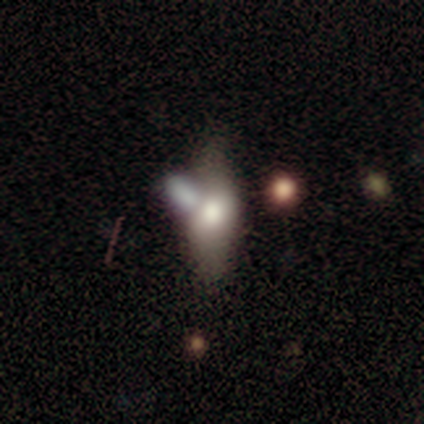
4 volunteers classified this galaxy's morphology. Volunteers were most divided on "merging": merger: 50%, minor disturbance: 25%, major disturbance: 25%, none: 0%. More confident: smooth or featured — smooth (75%); how rounded — in between (67%).